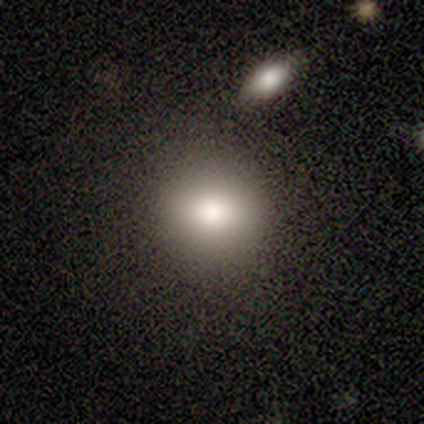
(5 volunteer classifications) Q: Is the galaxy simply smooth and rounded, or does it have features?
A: smooth — 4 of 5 (80%).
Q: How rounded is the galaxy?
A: round — 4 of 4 (100%).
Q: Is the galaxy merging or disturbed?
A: none — 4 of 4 (100%).